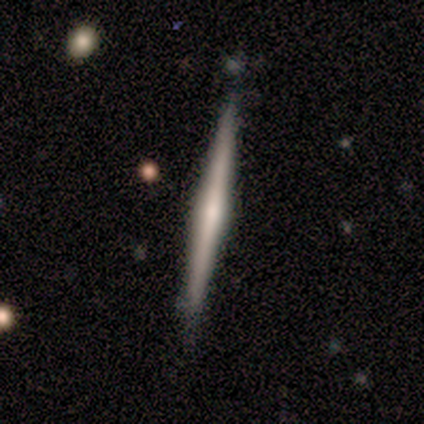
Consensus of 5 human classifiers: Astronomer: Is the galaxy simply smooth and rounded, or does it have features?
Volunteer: featured or disk — 100%.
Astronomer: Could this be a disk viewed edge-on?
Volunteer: yes — 100%.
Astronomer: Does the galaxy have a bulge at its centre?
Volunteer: rounded — 60%.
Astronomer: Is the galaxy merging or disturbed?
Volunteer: none — 80%.